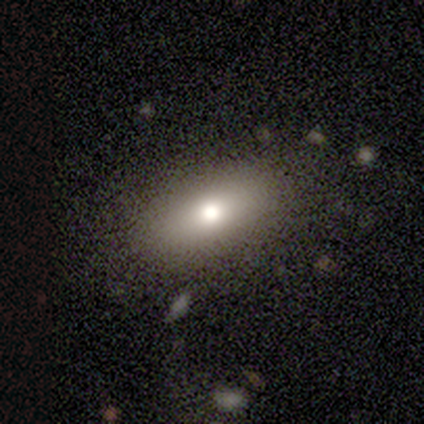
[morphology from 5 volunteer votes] Q: Smooth or featured?
A: smooth (60%); runner-up: star or artifact (40%)
Q: How rounded?
A: in between (100%)
Q: Merging?
A: none (100%)